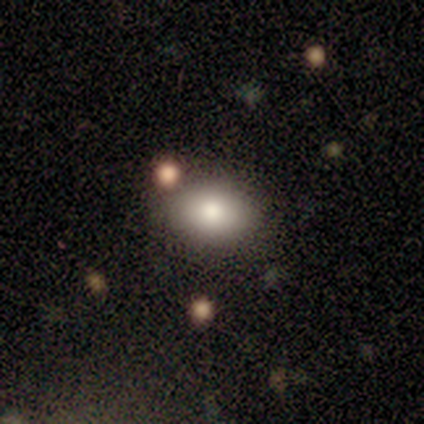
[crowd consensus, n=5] Smooth or featured? 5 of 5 (100%) said smooth. How rounded? 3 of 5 (60%) said round. Merging? 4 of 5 (80%) said none.